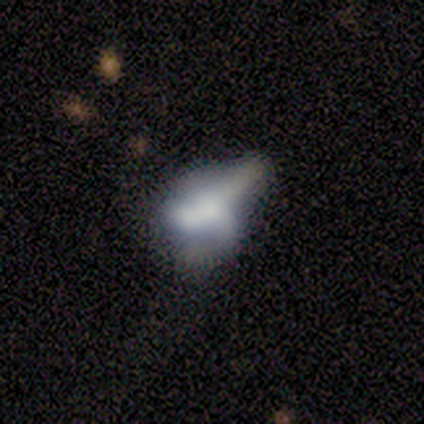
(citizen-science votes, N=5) smooth-or-featured: smooth: 40% (tied) | featured or disk: 40% (tied) | star or artifact: 20%
  how-rounded: in between: 100% | round: 0% | cigar-shaped: 0%
  merging: merger: 50% | none: 25% | major disturbance: 25% | minor disturbance: 0%